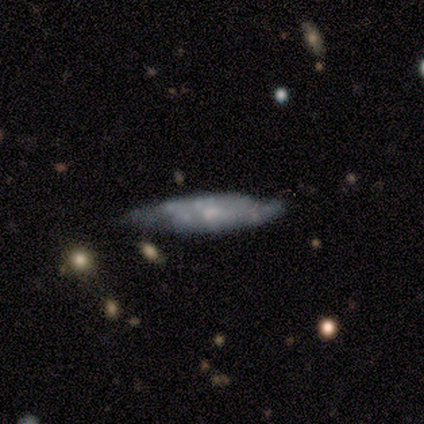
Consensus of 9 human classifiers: Smooth or featured? 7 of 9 (78%) said featured or disk. Edge-on disk? 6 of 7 (86%) said no. Bar? 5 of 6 (83%) said no. Spiral arms? 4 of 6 (67%) said no. Bulge size? 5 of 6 (83%) said small. Merging? 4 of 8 (50%) said minor disturbance.